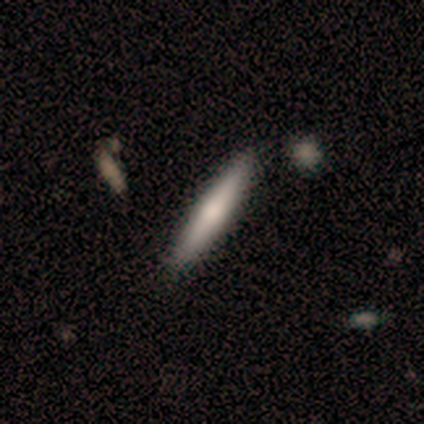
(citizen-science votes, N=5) Overall: smooth (100%). How rounded: cigar-shaped (60%; in between 40%). Merging: none (60%; minor disturbance 20%).